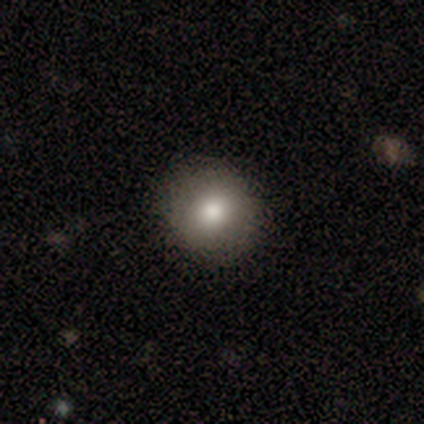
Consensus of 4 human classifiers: smooth_or_featured: smooth (p=0.75) [alt: featured or disk p=0.25]
how_rounded: round (p=1.00)
merging: none (p=1.00)